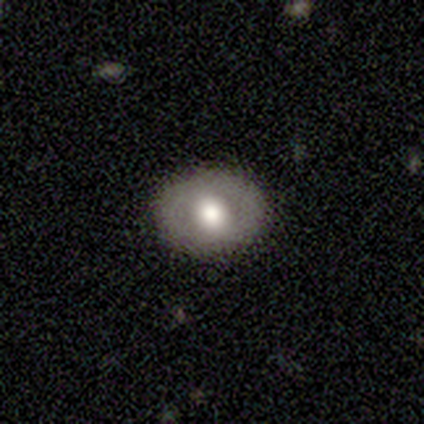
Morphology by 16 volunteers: smooth-or-featured: smooth: 50% (tied) | featured or disk: 50% (tied) | star or artifact: 0%
  how-rounded: round: 75% | in between: 25% | cigar-shaped: 0%
  merging: none: 94% | major disturbance: 6% | minor disturbance: 0% | merger: 0%